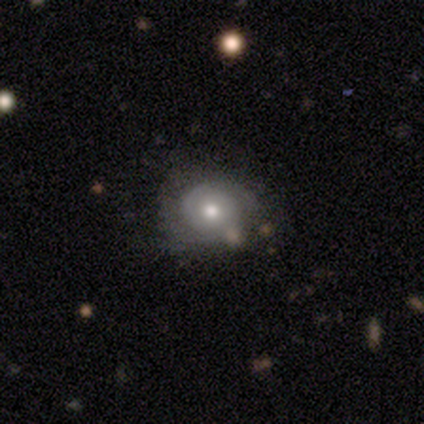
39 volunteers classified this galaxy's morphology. type=featured or disk (72%); edge-on=no (96%); bar=no (93%); spiral arms=yes (89%); winding=tight (75%); arm count=2 (50%); bulge=moderate (70%); merging=none (47%).